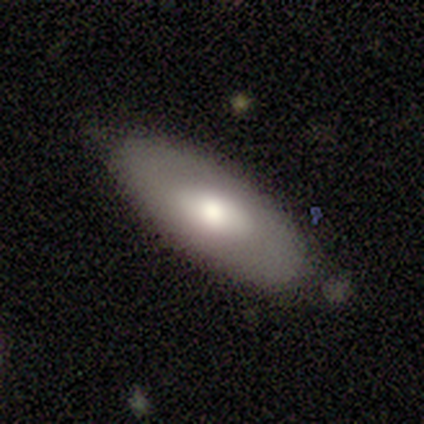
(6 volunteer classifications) smooth_or_featured: smooth (p=1.00)
how_rounded: in between (p=1.00)
merging: none (p=0.50) [alt: minor disturbance p=0.33]